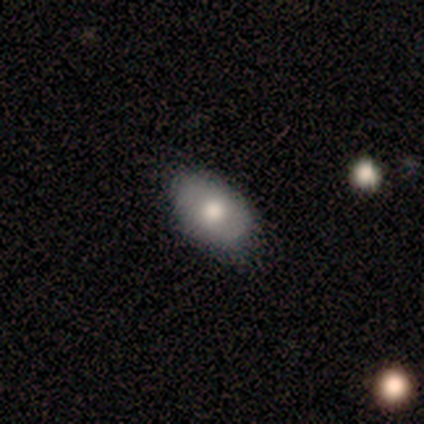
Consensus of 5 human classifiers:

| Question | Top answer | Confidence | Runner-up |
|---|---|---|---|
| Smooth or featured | smooth | 100% | — |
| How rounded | in between | 100% | — |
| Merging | none | 80% | minor disturbance (20%) |